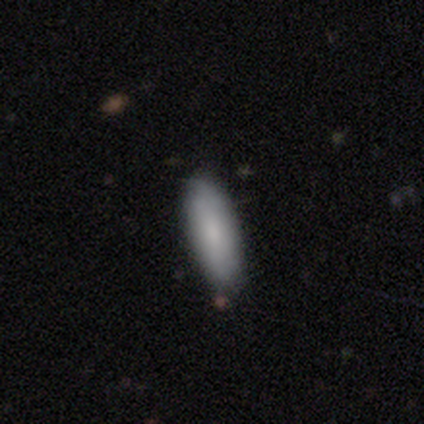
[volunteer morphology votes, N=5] smooth_or_featured: smooth (p=0.80) [alt: featured or disk p=0.20]
how_rounded: in between (p=0.50) [tied with: cigar-shaped p=0.50]
merging: none (p=1.00)